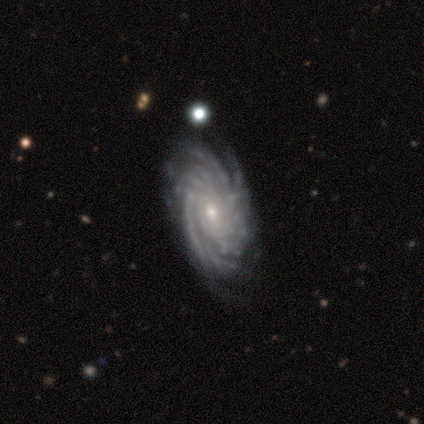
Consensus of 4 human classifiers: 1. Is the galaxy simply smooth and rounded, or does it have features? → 75% featured or disk, 25% smooth, 0% star or artifact.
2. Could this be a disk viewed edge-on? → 100% no, 0% yes.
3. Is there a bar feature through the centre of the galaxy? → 100% no, 0% strong, 0% weak.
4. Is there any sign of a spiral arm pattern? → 100% yes, 0% no.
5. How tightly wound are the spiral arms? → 67% medium, 33% tight, 0% loose.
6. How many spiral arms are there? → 33% 2 (tied), 33% more than 4 (tied), 33% can't tell (tied), 0% 1, 0% 3, 0% 4.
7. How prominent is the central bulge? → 67% small, 33% moderate, 0% dominant, 0% large, 0% none.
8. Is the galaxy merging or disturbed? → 75% none, 25% minor disturbance, 0% major disturbance, 0% merger.